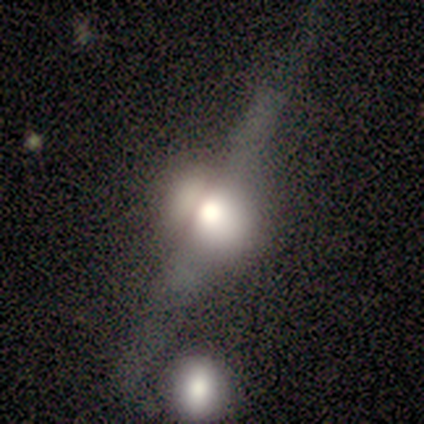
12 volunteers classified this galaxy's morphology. Smooth or featured?
  - featured or disk: 92% *
  - smooth: 8%
  - star or artifact: 0%
Edge-on disk?
  - yes: 100% *
  - no: 0%
Edge-on bulge?
  - rounded: 100% *
  - boxy: 0%
  - none: 0%
Merging?
  - none: 58% *
  - merger: 25%
  - minor disturbance: 17%
  - major disturbance: 0%